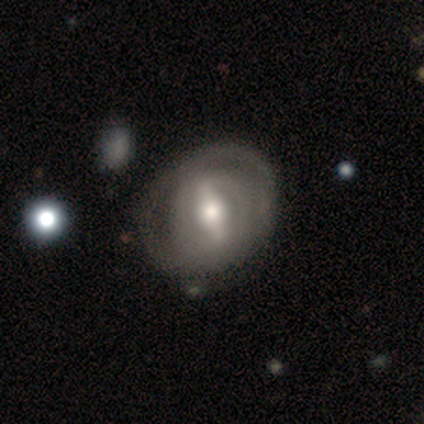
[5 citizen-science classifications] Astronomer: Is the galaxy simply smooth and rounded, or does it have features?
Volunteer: featured or disk — 100%.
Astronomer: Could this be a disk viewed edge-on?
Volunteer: no — 100%.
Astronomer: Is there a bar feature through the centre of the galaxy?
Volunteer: strong — 100%.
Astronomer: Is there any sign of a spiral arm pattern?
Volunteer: yes — 60% (runner-up: no, 40%).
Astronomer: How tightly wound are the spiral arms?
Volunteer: tight — 67%.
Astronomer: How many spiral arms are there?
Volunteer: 2 — 100%.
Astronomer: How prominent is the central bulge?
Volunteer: large — 80%.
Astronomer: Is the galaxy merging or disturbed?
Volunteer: none — 40%, tied with minor disturbance at 40%.